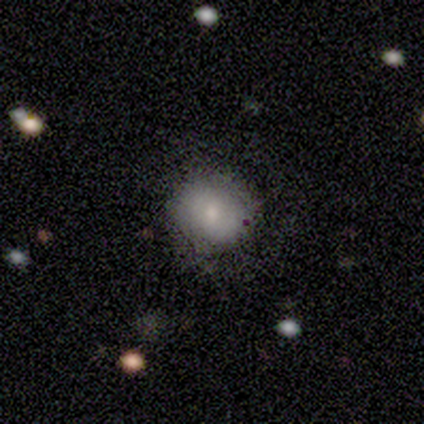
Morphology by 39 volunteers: Smooth or featured? 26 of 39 (67%) said smooth. How rounded? 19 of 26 (73%) said round. Merging? 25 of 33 (76%) said none.